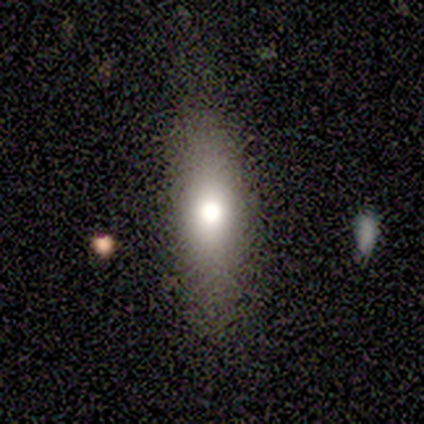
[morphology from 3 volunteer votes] This appears to be a smooth galaxy with no disk features (100%) that is in between round and cigar-shaped (67%). Merging: none (100%).